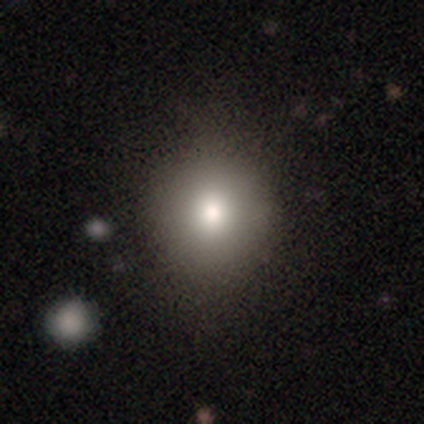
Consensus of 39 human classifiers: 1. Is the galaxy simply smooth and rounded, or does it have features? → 74% smooth, 15% featured or disk, 10% star or artifact.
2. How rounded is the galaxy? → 90% round, 10% in between, 0% cigar-shaped.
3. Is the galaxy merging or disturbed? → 66% none, 9% major disturbance, 3% minor disturbance, 3% merger.